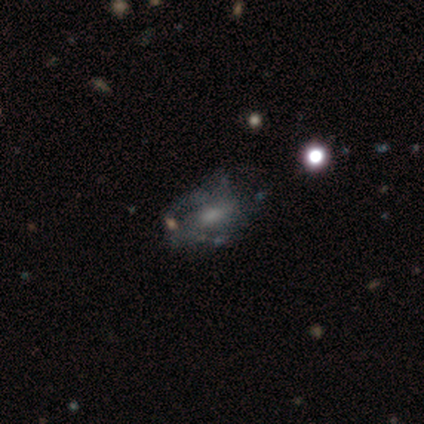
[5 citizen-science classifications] Smooth or featured: featured or disk — 100%
Edge-on disk: no — 80% (yes — 20%)
Bar: no — 100%
Spiral arms: no — 75% (yes — 25%)
Bulge size: moderate — 50% (tied with small — 50%)
Merging: none — 80% (major disturbance — 20%)